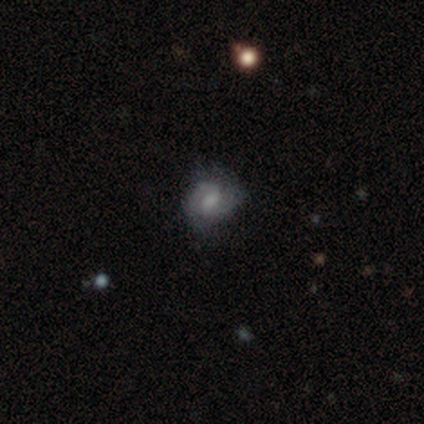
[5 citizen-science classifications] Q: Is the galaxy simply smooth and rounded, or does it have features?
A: featured or disk — 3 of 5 (60%).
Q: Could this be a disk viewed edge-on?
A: no — 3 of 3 (100%).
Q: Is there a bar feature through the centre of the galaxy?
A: weak — 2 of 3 (67%).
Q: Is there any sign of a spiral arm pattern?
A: yes — 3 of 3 (100%).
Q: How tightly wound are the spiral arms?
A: medium — 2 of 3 (67%).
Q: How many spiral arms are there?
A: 2 — 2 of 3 (67%).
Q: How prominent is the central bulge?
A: moderate — 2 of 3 (67%).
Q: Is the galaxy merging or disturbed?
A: none — 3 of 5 (60%).